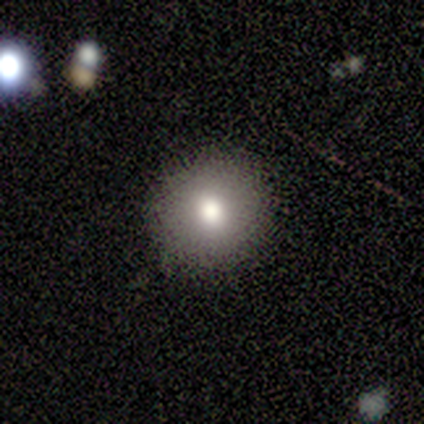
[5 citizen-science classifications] Smooth or featured? 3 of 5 (60%) said smooth. How rounded? 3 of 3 (100%) said round. Merging? 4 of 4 (100%) said none.